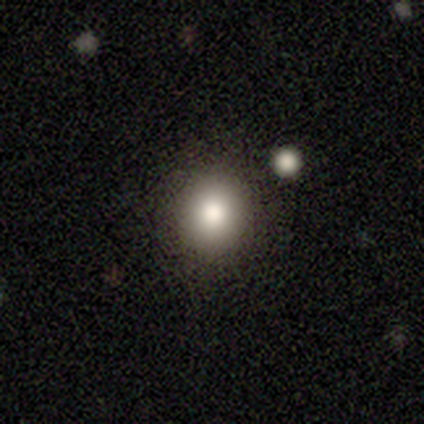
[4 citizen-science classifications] Smooth or featured? smooth (75%)
How rounded? round (100%)
Merging? none (75%)